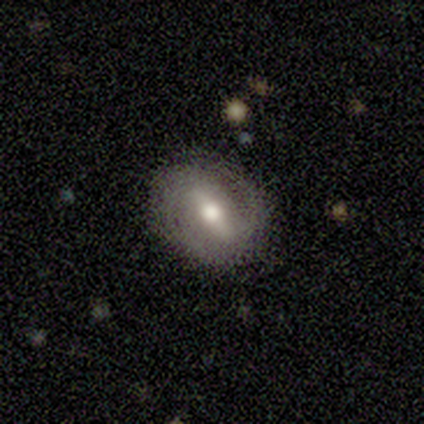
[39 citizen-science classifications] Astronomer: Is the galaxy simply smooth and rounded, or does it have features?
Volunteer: featured or disk — 69%.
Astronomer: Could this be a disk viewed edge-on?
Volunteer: no — 81%.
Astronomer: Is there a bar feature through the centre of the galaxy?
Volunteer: strong — 64%.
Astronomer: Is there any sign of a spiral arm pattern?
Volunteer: yes — 73%.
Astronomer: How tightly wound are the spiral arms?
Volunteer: tight — 50%.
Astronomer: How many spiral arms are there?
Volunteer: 2 — 94%.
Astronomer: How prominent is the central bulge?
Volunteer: moderate — 82%.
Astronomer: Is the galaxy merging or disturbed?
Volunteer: none — 71%.